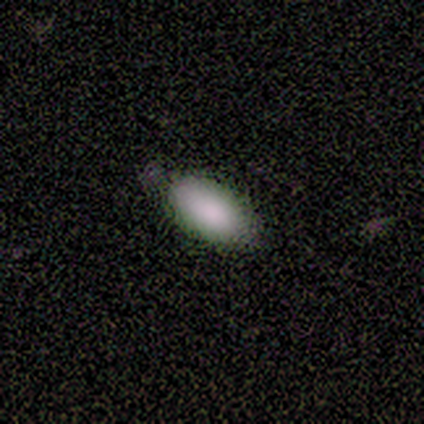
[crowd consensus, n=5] Smooth or featured? smooth (100%)
How rounded? in between (100%)
Merging? none (60%)